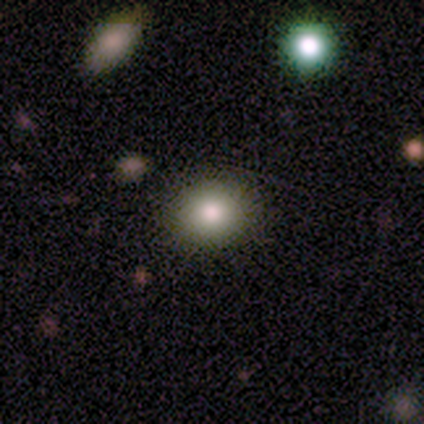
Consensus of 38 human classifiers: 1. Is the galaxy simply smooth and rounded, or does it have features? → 79% smooth, 11% featured or disk, 11% star or artifact.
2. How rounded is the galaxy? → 73% round, 27% in between, 0% cigar-shaped.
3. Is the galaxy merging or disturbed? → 94% none, 6% minor disturbance, 0% major disturbance, 0% merger.